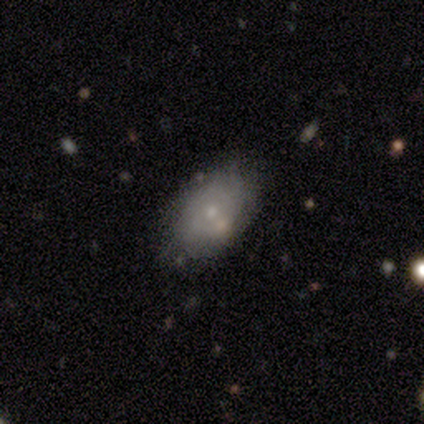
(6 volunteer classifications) Smooth or featured? smooth (50%)
How rounded? in between (100%)
Merging? none (40%, tied with merger)